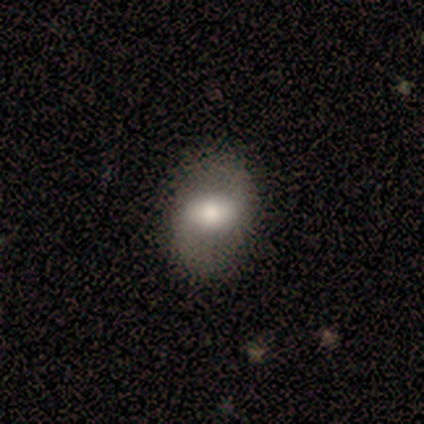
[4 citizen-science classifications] This is likely a smooth galaxy (75%). How rounded: clearly in between (100%). Merging: likely none (75%).